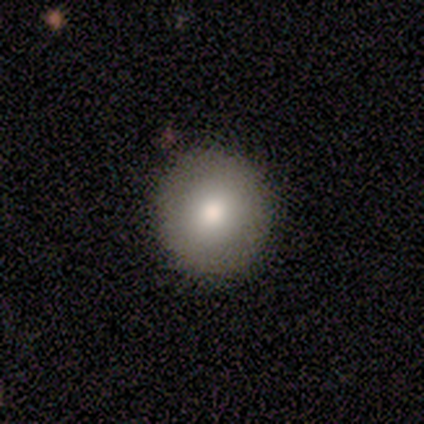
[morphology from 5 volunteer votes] type=smooth (60%); roundness=round (100%); merging=none (100%).